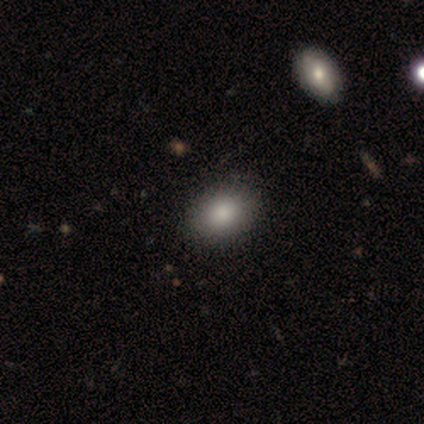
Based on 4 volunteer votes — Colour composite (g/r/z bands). It shows a smooth galaxy with no disk features (100%) that is in between round and cigar-shaped (75%). Merging: none (100%).